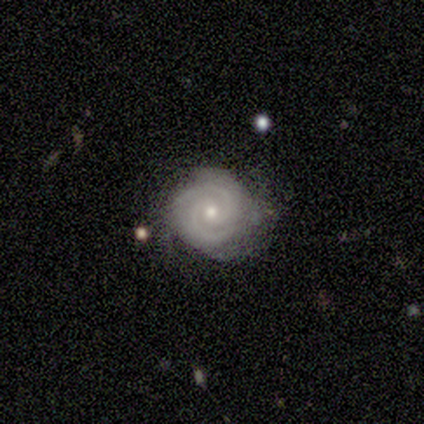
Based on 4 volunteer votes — Smooth or featured? featured or disk (100%)
Edge-on disk? no (100%)
Bar? no (75%)
Spiral arms? yes (100%)
Spiral winding? tight (75%)
Spiral arm count? 2 (75%)
Bulge size? moderate (75%)
Merging? minor disturbance (75%)